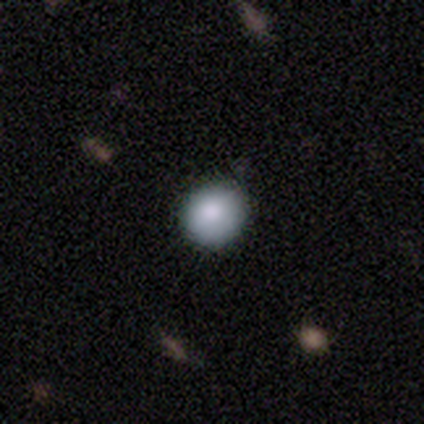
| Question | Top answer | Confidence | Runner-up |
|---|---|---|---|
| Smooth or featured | smooth | 82% | featured or disk (10%) |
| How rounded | round | 91% | in between (9%) |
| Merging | none | 86% | minor disturbance (11%) |